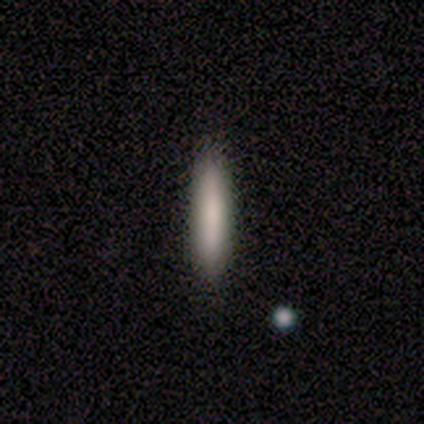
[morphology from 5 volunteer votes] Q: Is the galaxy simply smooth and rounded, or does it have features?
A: smooth — 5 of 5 (100%).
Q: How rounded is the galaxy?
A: cigar-shaped — 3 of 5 (60%).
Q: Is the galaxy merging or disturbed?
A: none — 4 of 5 (80%).